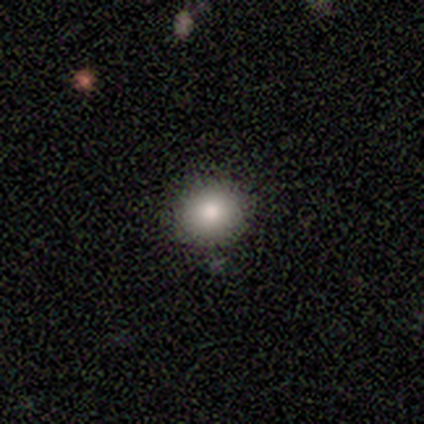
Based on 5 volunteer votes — This is clearly a smooth galaxy (100%). How rounded: clearly round (100%). Merging: clearly none (100%).